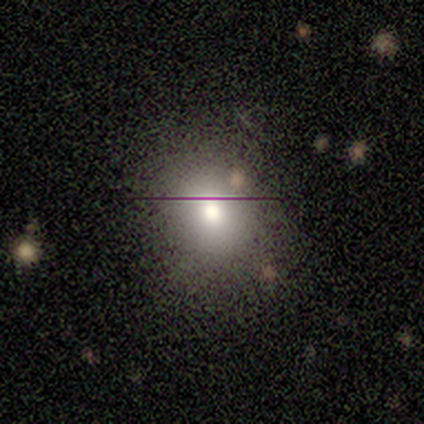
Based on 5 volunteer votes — Smooth or featured? 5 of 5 (100%) said smooth. How rounded? 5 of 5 (100%) said round. Merging? 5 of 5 (100%) said none.